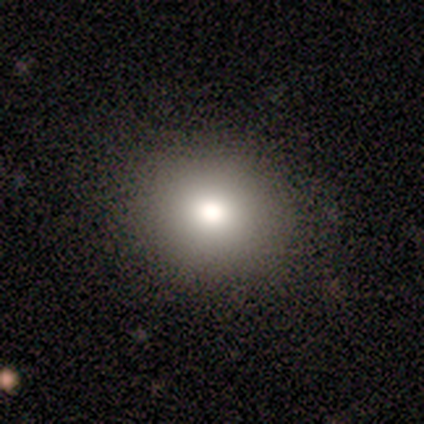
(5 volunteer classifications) smooth_or_featured: smooth (p=0.80) [alt: featured or disk p=0.20]
how_rounded: round (p=0.75) [alt: in between p=0.25]
merging: none (p=0.80) [alt: minor disturbance p=0.20]